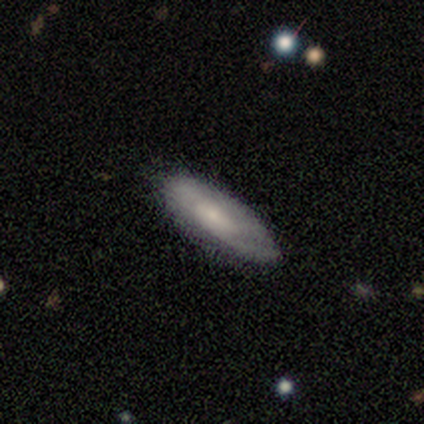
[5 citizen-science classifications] Smooth or featured?
  - smooth: 60% *
  - featured or disk: 40%
  - star or artifact: 0%
How rounded?
  - in between: 67% *
  - cigar-shaped: 33%
  - round: 0%
Merging?
  - none: 60% *
  - minor disturbance: 40%
  - major disturbance: 0%
  - merger: 0%